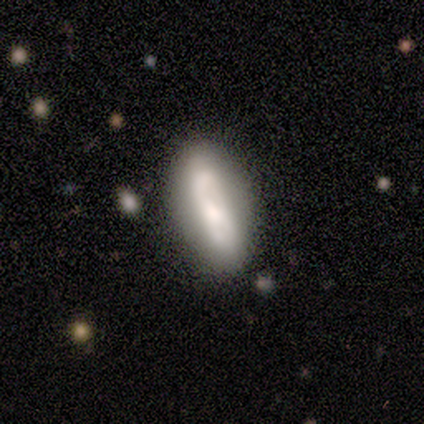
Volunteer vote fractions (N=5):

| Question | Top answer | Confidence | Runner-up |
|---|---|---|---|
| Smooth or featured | smooth | 80% | featured or disk (20%) |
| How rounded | in between | 100% | — |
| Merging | none | 60% | minor disturbance (20%) |